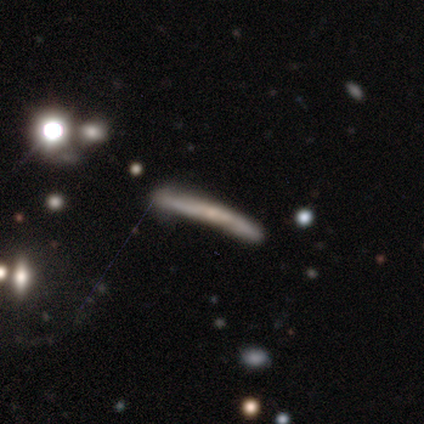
This is clearly a featured or disk galaxy (80%). It is clearly viewed edge-on (100%). Edge-on bulge: clearly none (100%). Merging: marginally none (40%, tied with major disturbance).